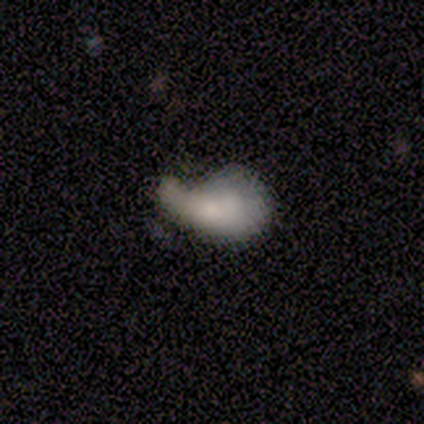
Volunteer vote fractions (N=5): featured or disk 60%, smooth 40%, star or artifact 0%. Down the decision tree: edge-on disk — no (100%); bar — no (100%); spiral arms — no (100%); bulge size — moderate (67%); merging — major disturbance (60%).